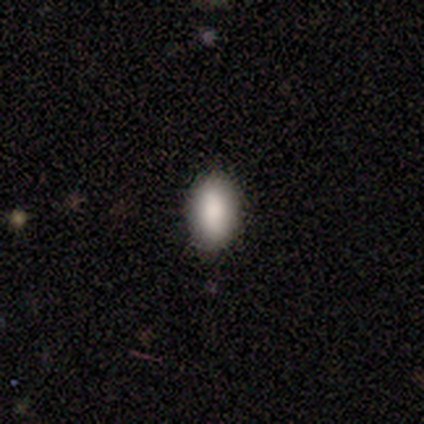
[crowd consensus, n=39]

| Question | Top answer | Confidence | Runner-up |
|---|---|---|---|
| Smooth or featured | smooth | 74% | featured or disk (13%) |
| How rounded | in between | 86% | cigar-shaped (10%) |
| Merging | none | 91% | minor disturbance (9%) |